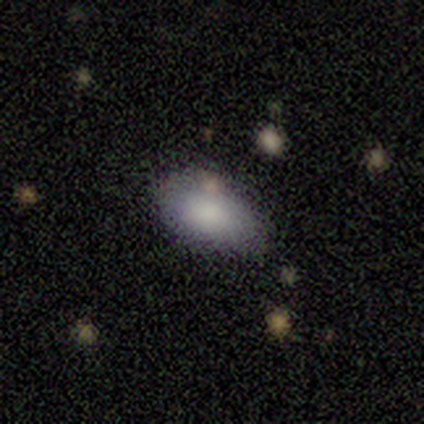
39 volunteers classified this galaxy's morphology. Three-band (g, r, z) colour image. It shows a smooth galaxy with no disk features (90%) that is in between round and cigar-shaped (94%). Merging: none (59%).